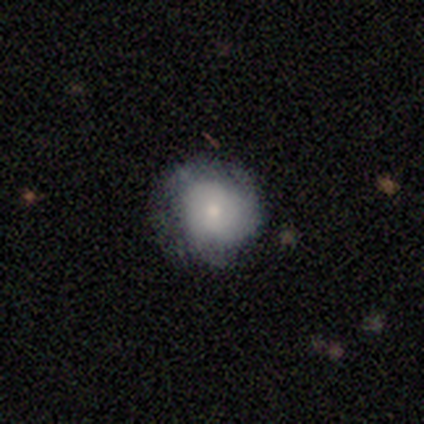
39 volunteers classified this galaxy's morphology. smooth-or-featured: smooth: 67% | featured or disk: 31% | star or artifact: 3%
  how-rounded: round: 85% | in between: 15% | cigar-shaped: 0%
  merging: none: 61% | minor disturbance: 29% | major disturbance: 8% | merger: 3%